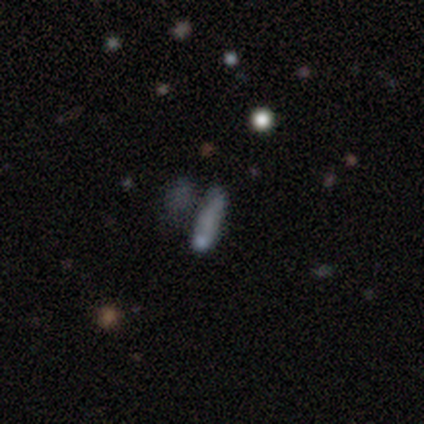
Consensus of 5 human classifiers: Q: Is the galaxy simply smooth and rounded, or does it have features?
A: star or artifact — 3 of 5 (60%).